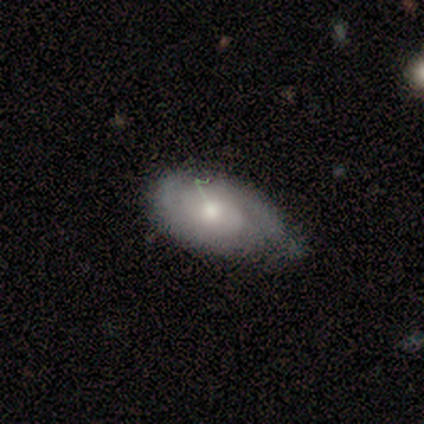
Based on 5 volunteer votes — Smooth or featured?
  - smooth: 60% *
  - featured or disk: 40%
  - star or artifact: 0%
How rounded?
  - in between: 100% *
  - round: 0%
  - cigar-shaped: 0%
Merging?
  - none: 60% *
  - minor disturbance: 40%
  - major disturbance: 0%
  - merger: 0%